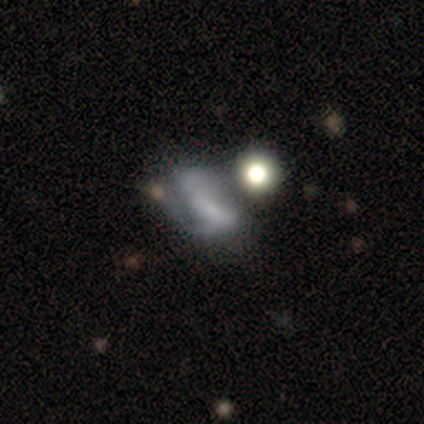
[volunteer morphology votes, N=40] A featured or disk galaxy (62%) with no bar (64%), no spiral arms (64%) and no central bulge (84%). Merging: none (30%).